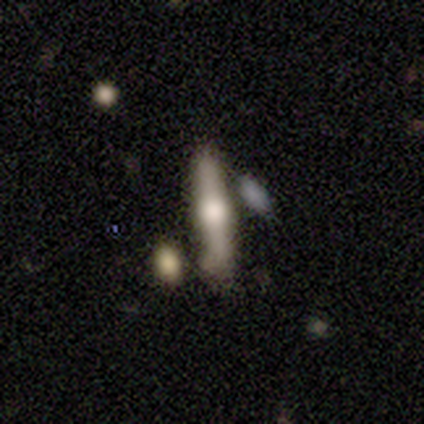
Smooth or featured? featured or disk (40%, tied with star or artifact)
Edge-on disk? yes (100%)
Edge-on bulge? rounded (100%)
Merging? minor disturbance (67%)